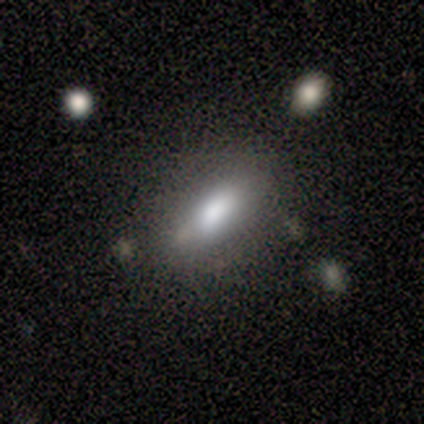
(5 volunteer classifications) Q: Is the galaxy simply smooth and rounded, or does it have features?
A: smooth — 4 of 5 (80%).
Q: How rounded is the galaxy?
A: in between — 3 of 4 (75%).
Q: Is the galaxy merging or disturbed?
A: none — 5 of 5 (100%).